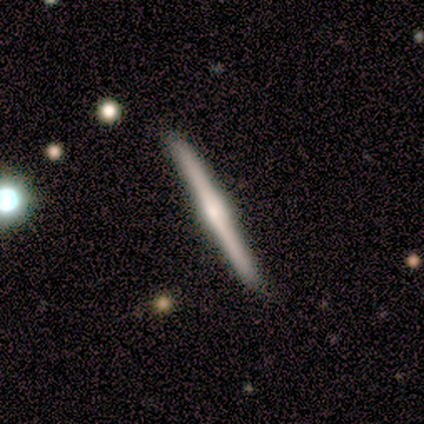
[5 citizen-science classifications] smooth-or-featured: featured or disk: 60% | smooth: 40% | star or artifact: 0%
  disk-edge-on: yes: 100% | no: 0%
    edge-on-bulge: rounded: 67% | boxy: 33% | none: 0%
  merging: none: 80% | minor disturbance: 20% | major disturbance: 0% | merger: 0%